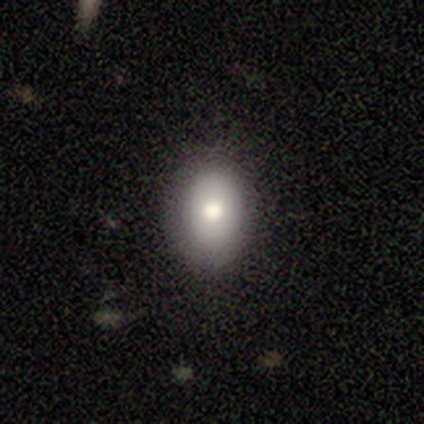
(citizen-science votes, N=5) Smooth or featured? smooth (100%)
How rounded? in between (60%)
Merging? none (100%)